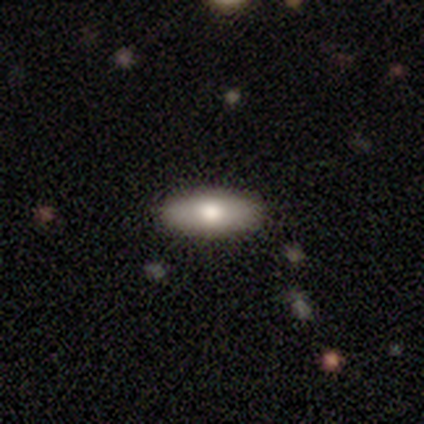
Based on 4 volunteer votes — This appears to be a smooth galaxy with no disk features (100%) that is in between round and cigar-shaped (100%). Merging: none (75%).